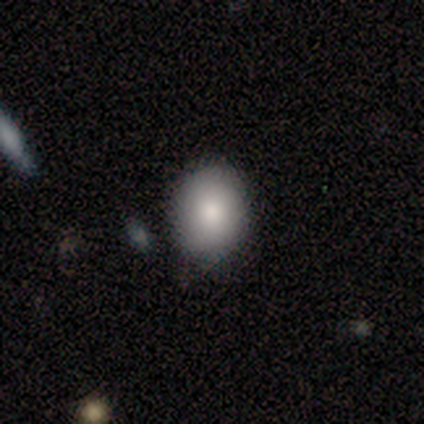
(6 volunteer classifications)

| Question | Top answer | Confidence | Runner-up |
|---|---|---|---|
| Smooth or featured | smooth | 100% | — |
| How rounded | round | 83% | in between (17%) |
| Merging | none | 100% | — |